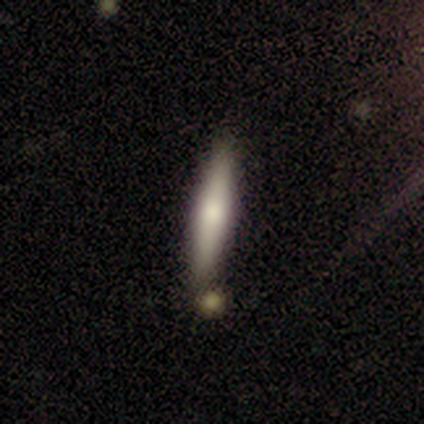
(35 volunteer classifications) A smooth galaxy with no disk features (60%) that is cigar-shaped (90%).

Vote fractions:
- Smooth or featured? smooth: 60% / featured or disk: 34% / star or artifact: 6%
- How rounded? cigar-shaped: 90% / in between: 10% / round: 0%
- Merging? none: 91% / merger: 6% / major disturbance: 3% / minor disturbance: 0%